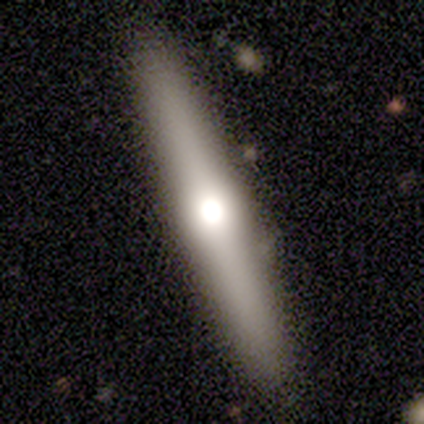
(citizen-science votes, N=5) Smooth or featured? featured or disk (80%)
Edge-on disk? yes (100%)
Edge-on bulge? rounded (100%)
Merging? none (100%)